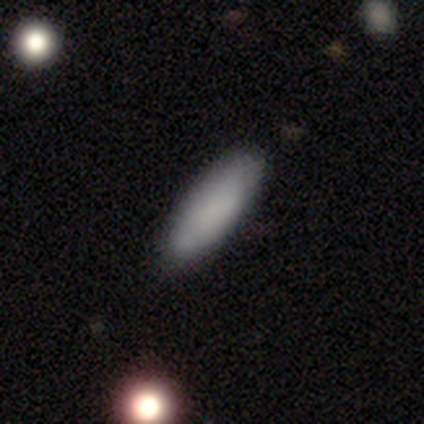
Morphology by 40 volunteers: type=smooth (80%); roundness=in between (50%); merging=none (86%).